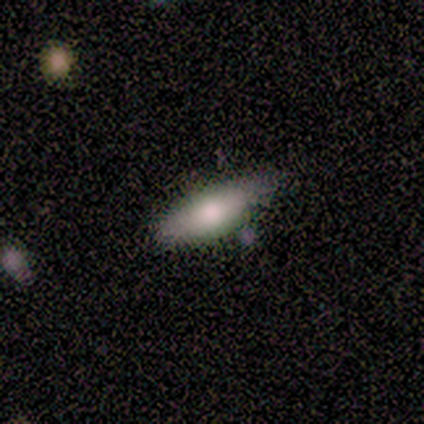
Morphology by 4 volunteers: type=smooth (50%); roundness=in between (100%); merging=none (67%).